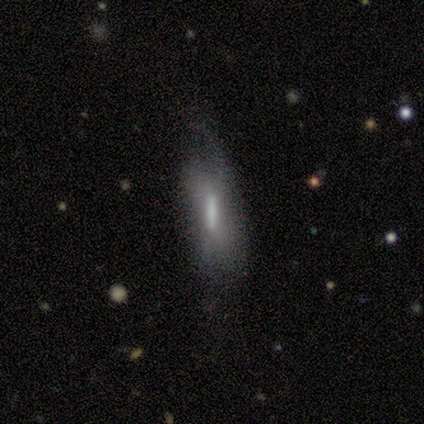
Volunteers were most divided on "smooth or featured": smooth: 50%, featured or disk: 33%, star or artifact: 17%. More confident: how rounded — cigar-shaped (100%); merging — none (60%).